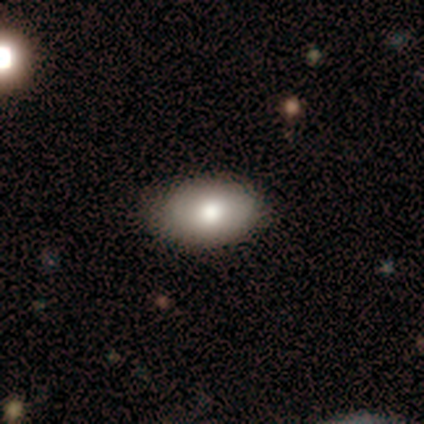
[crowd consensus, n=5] This appears to be a smooth galaxy with no disk features (100%) that is in between round and cigar-shaped (100%). Merging: minor disturbance (60%).